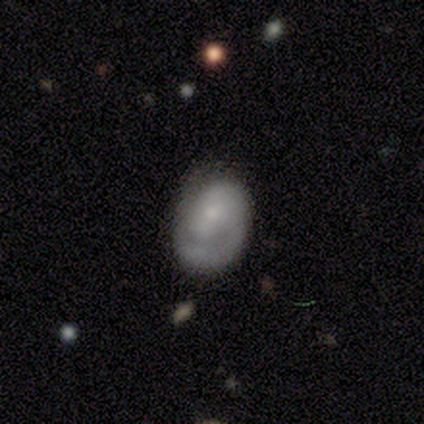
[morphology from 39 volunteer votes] smooth_or_featured: smooth (p=0.49) [alt: featured or disk p=0.38]
how_rounded: in between (p=0.84) [alt: round p=0.11]
merging: none (p=0.62) [alt: minor disturbance p=0.26]